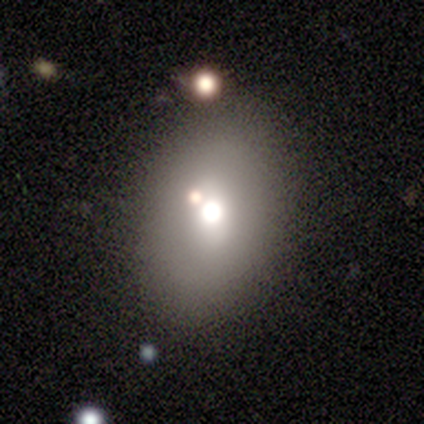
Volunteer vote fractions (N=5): A smooth galaxy with no disk features (80%) that is in between round and cigar-shaped (75%).

Vote fractions:
- Smooth or featured? smooth: 80% / featured or disk: 20% / star or artifact: 0%
- How rounded? in between: 75% / round: 25% / cigar-shaped: 0%
- Merging? none: 80% / merger: 20% / minor disturbance: 0% / major disturbance: 0%